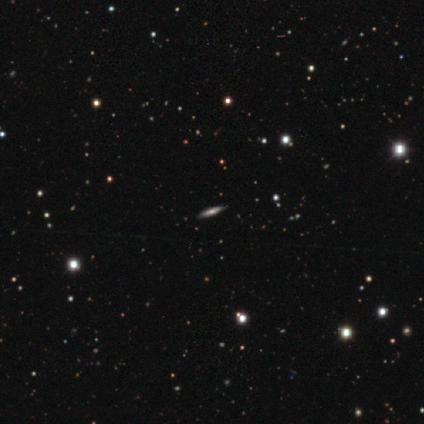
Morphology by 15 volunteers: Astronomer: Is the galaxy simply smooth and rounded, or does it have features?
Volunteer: smooth — 47% (runner-up: featured or disk, 40%).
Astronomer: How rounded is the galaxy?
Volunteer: cigar-shaped — 71%.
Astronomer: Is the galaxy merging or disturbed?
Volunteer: none — 77%.